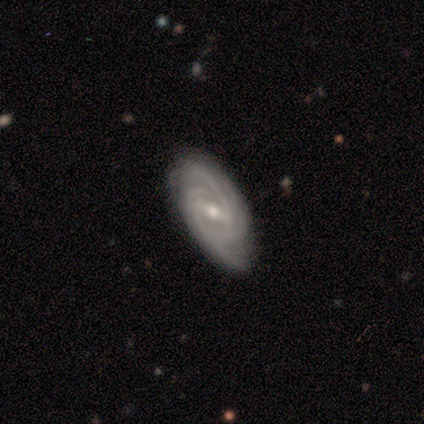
featured or disk 100%, smooth 0%, star or artifact 0%. Down the decision tree: edge-on disk — no (83%); bar — weak (60%); spiral arms — yes (100%); spiral arm count — 2 (60%); spiral winding — medium (60%); bulge size — small (60%); merging — none (83%).